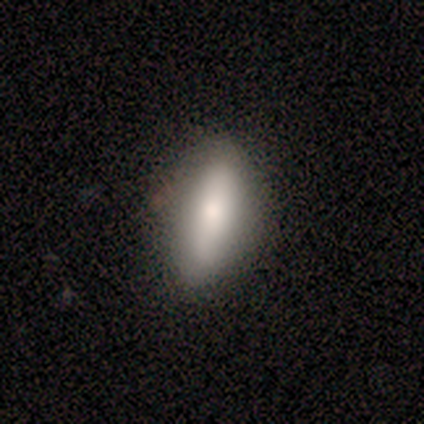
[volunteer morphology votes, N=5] Smooth or featured: smooth — 60% (featured or disk — 40%)
How rounded: in between — 67% (cigar-shaped — 33%)
Merging: none — 80% (major disturbance — 20%)